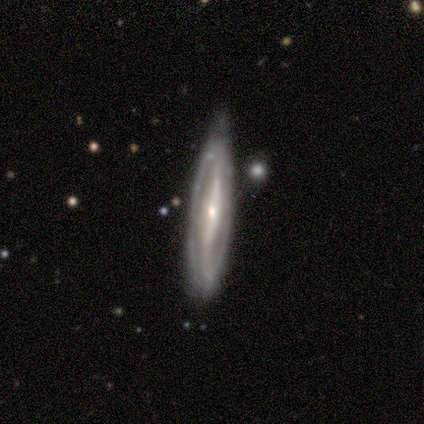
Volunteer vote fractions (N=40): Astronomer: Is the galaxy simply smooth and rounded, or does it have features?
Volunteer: featured or disk — 68%.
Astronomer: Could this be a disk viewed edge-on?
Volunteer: no — 63%.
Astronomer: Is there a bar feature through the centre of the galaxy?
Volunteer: strong — 65%.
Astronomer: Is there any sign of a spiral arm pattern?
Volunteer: yes — 88%.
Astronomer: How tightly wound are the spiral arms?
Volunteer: medium — 40% (runner-up: tight, 33%).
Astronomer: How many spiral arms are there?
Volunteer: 2 — 87%.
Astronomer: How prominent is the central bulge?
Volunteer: small — 59% (runner-up: moderate, 35%).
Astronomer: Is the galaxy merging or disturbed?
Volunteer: none — 75%.